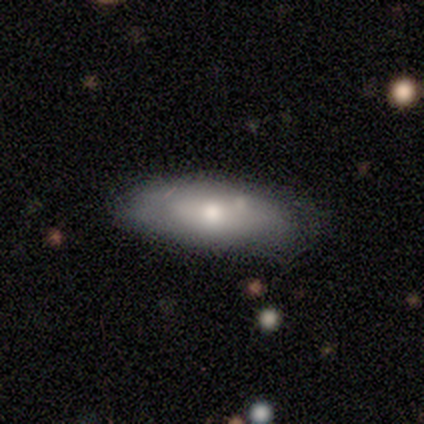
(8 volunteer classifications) Smooth or featured? 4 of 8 (50%) said smooth. How rounded? 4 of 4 (100%) said in between. Merging? 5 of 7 (71%) said none.